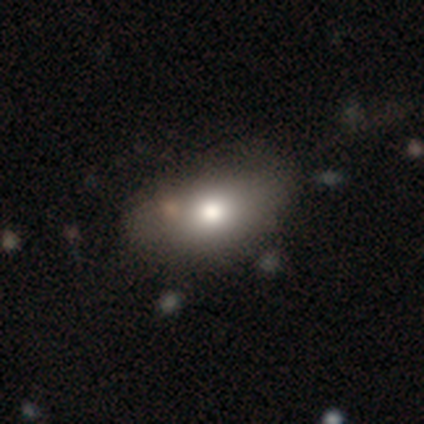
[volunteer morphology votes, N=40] Q: Smooth or featured?
A: smooth (80%); runner-up: featured or disk (12%)
Q: How rounded?
A: in between (81%); runner-up: round (16%)
Q: Merging?
A: none (43%); runner-up: minor disturbance (22%)